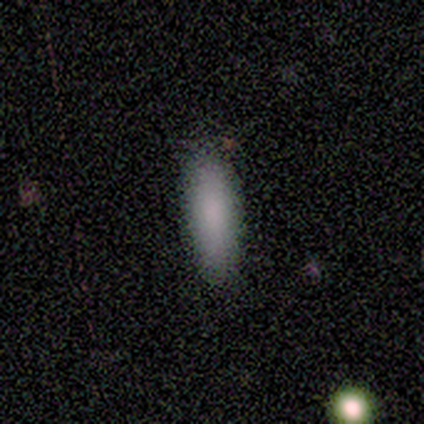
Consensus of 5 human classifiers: Smooth or featured?
  - smooth: 100% *
  - featured or disk: 0%
  - star or artifact: 0%
How rounded?
  - cigar-shaped: 80% *
  - in between: 20%
  - round: 0%
Merging?
  - none: 80% *
  - minor disturbance: 20%
  - major disturbance: 0%
  - merger: 0%